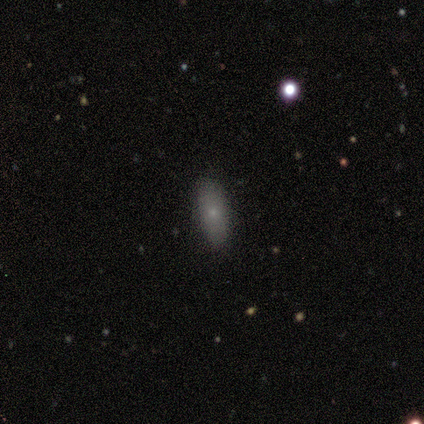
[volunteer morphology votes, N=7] A smooth galaxy with no disk features (57%) that is cigar-shaped (75%).

Vote fractions:
- Smooth or featured? smooth: 57% / featured or disk: 43% / star or artifact: 0%
- How rounded? cigar-shaped: 75% / in between: 25% / round: 0%
- Merging? none: 57% / minor disturbance: 29% / major disturbance: 14% / merger: 0%